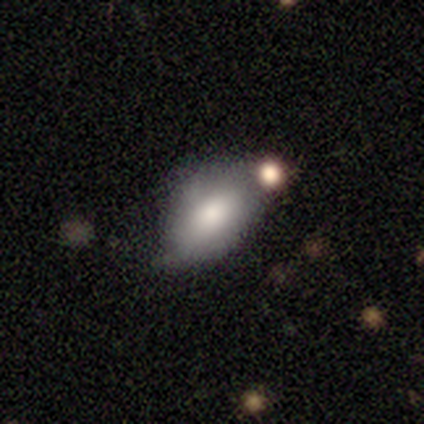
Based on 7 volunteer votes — Smooth or featured? 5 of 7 (71%) said smooth. How rounded? 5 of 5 (100%) said in between. Merging? 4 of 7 (57%) said none.